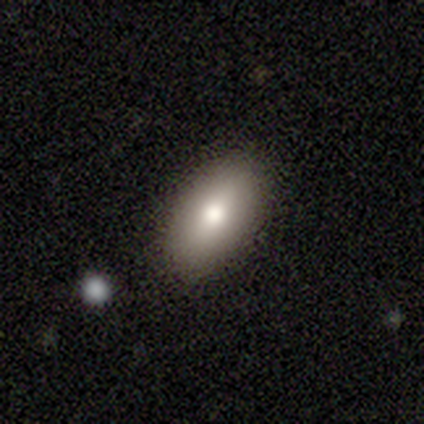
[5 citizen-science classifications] smooth_or_featured: smooth (p=1.00)
how_rounded: in between (p=1.00)
merging: none (p=0.40) [tied with: minor disturbance p=0.40]